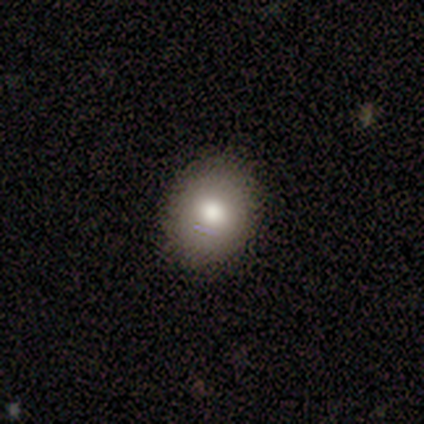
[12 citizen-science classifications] Overall: smooth (92%). How rounded: round (55%; in between 45%). Merging: none (83%).